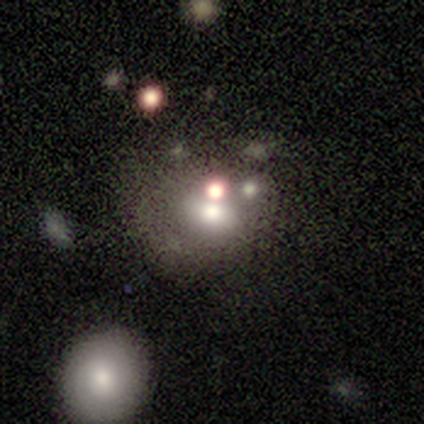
Smooth or featured?
  - smooth: 75% *
  - featured or disk: 25%
  - star or artifact: 0%
How rounded?
  - round: 67% *
  - in between: 33%
  - cigar-shaped: 0%
Merging?
  - merger: 75% *
  - none: 25%
  - minor disturbance: 0%
  - major disturbance: 0%